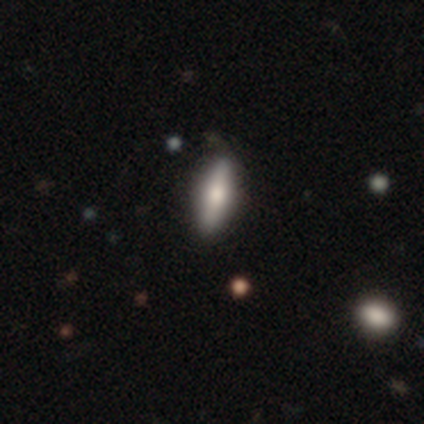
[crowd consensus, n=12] This is possibly a smooth galaxy (50%). How rounded: likely cigar-shaped (67%). Merging: clearly none (82%).